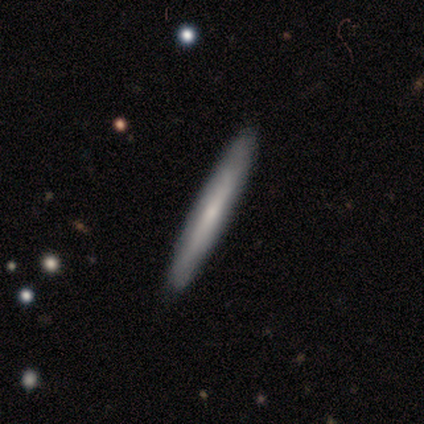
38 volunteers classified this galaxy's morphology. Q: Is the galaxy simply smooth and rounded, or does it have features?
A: smooth — 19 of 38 (50%).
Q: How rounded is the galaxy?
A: cigar-shaped — 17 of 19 (89%).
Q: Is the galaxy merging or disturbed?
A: none — 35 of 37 (95%).